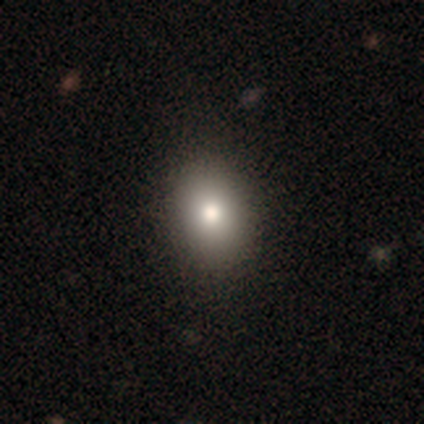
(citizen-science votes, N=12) Smooth or featured?
  - smooth: 83% *
  - featured or disk: 17%
  - star or artifact: 0%
How rounded?
  - in between: 60% *
  - round: 40%
  - cigar-shaped: 0%
Merging?
  - none: 83% *
  - minor disturbance: 17%
  - major disturbance: 0%
  - merger: 0%